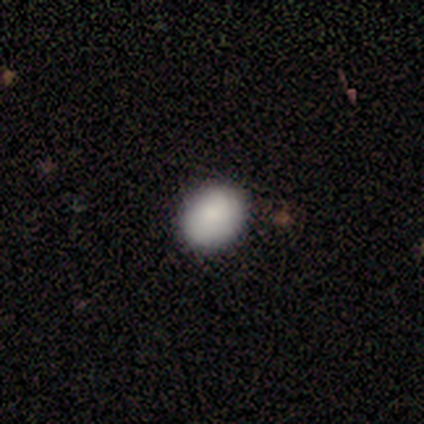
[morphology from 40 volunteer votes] Volunteers were most divided on "how rounded": in between: 54%, round: 46%, cigar-shaped: 0%. More confident: smooth or featured — smooth (88%); merging — none (63%).